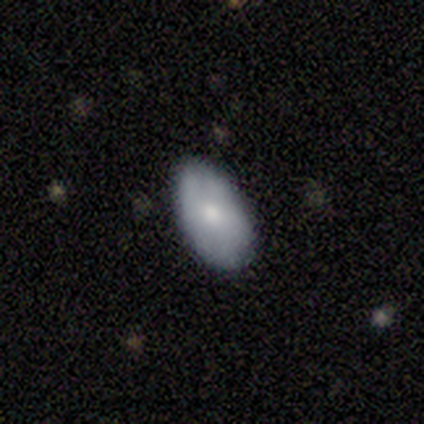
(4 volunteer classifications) A smooth galaxy with no disk features (100%) that is in between round and cigar-shaped (100%). Merging: none (50%).